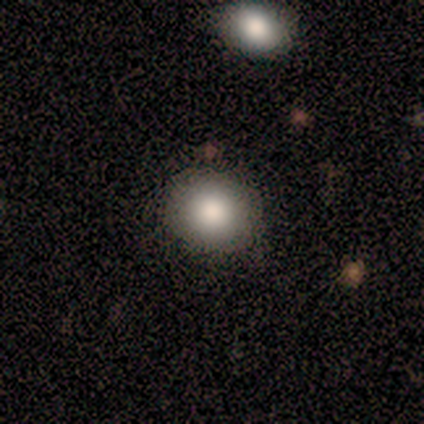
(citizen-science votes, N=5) smooth_or_featured: smooth (p=0.60) [alt: featured or disk p=0.20]
how_rounded: round (p=0.67) [alt: in between p=0.33]
merging: none (p=1.00)